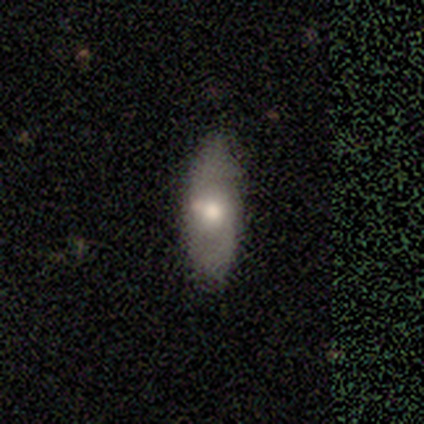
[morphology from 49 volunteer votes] smooth 55%, featured or disk 35%, star or artifact 10%. Down the decision tree: how rounded — in between (63%); merging — none (86%).